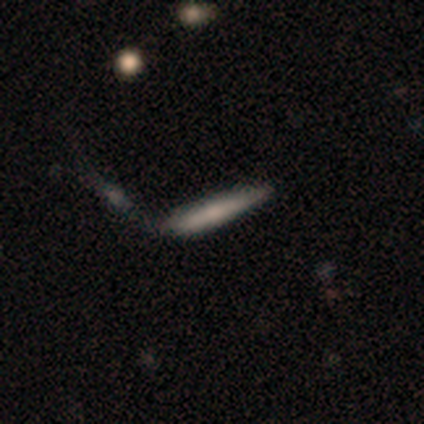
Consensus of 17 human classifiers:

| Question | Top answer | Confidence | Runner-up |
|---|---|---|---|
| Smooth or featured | smooth | 65% | featured or disk (35%) |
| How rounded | cigar-shaped | 82% | in between (18%) |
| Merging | none | 47% | merger (29%) |